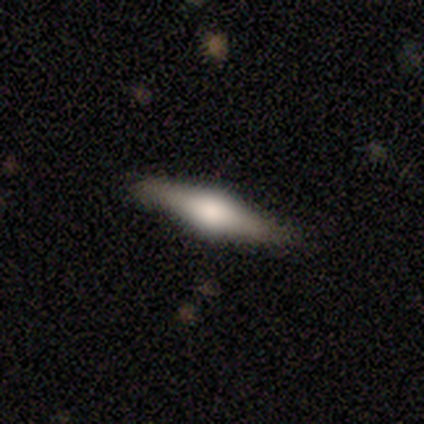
This is possibly a smooth galaxy (50%, tied with featured or disk). How rounded: clearly cigar-shaped (100%). Merging: clearly none (100%).